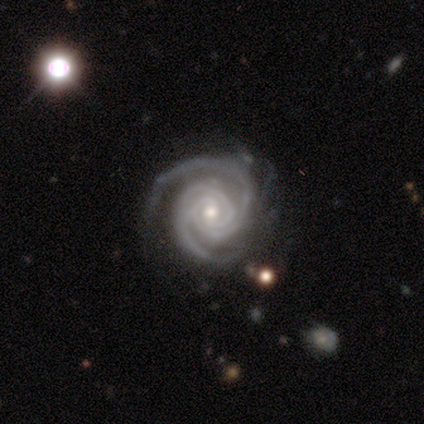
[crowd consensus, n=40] Smooth or featured? featured or disk (98%)
Edge-on disk? no (100%)
Bar? no (56%)
Spiral arms? yes (97%)
Spiral winding? tight (82%)
Spiral arm count? 2 (68%)
Bulge size? moderate (67%)
Merging? none (49%)